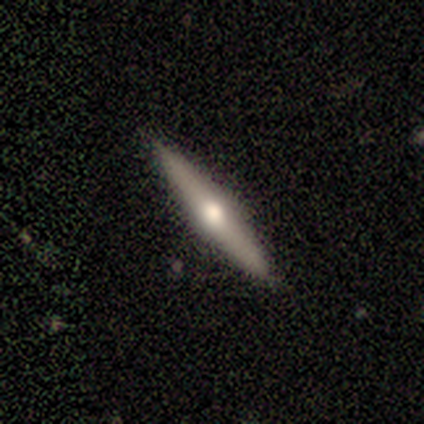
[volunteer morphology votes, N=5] smooth-or-featured: featured or disk: 60% | smooth: 40% | star or artifact: 0%
  disk-edge-on: yes: 100% | no: 0%
    edge-on-bulge: rounded: 100% | boxy: 0% | none: 0%
  merging: none: 100% | minor disturbance: 0% | major disturbance: 0% | merger: 0%